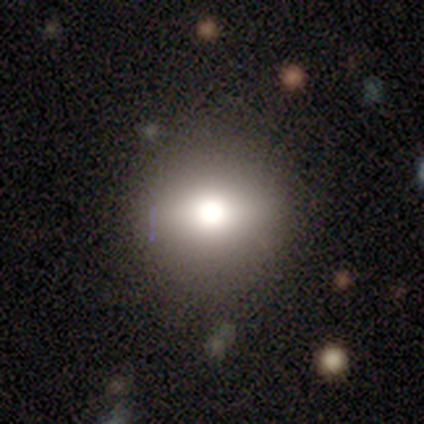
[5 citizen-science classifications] Overall: smooth (60%; featured or disk 40%). How rounded: round (67%; in between 33%). Merging: none (80%).